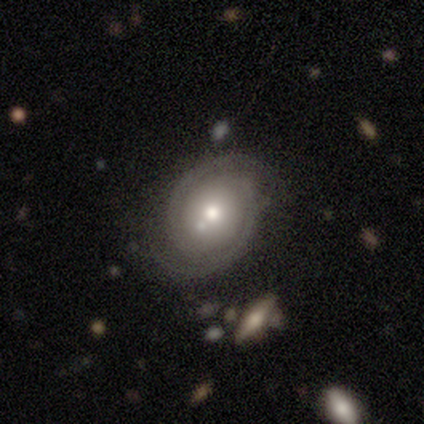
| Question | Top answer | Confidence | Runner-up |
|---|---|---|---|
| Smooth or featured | featured or disk | 80% | smooth (20%) |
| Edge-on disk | no | 100% | — |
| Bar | no | 100% | — |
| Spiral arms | yes | 100% | — |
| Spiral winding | tight | 100% | — |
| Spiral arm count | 2 | 100% | — |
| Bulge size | moderate | 50% | large (25%) |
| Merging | none | 80% | minor disturbance (20%) |